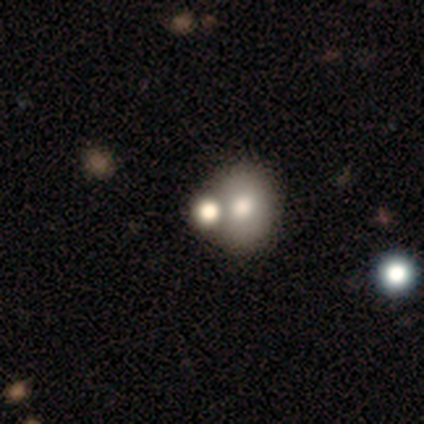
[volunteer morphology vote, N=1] Smooth or featured?
  - smooth: 100% *
  - featured or disk: 0%
  - star or artifact: 0%
How rounded?
  - round: 100% *
  - in between: 0%
  - cigar-shaped: 0%
Merging?
  - merger: 100% *
  - none: 0%
  - minor disturbance: 0%
  - major disturbance: 0%